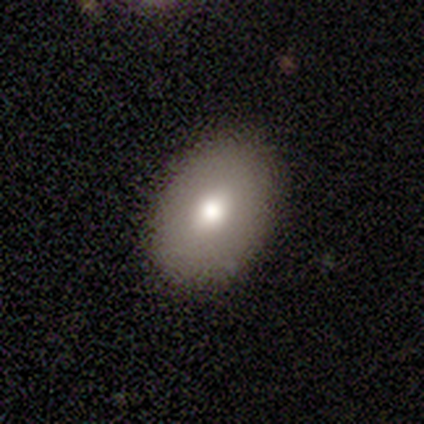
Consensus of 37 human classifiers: smooth 65%, featured or disk 27%, star or artifact 8%. Down the decision tree: how rounded — in between (75%); merging — none (79%).